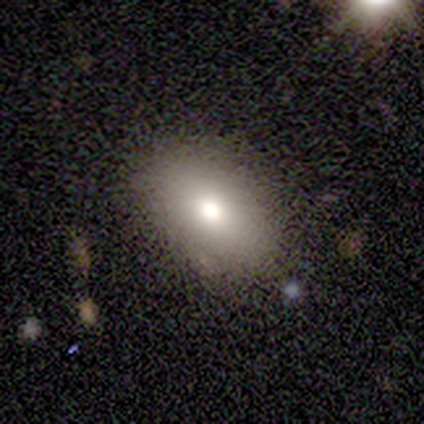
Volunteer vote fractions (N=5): Smooth or featured?
  - smooth: 100% *
  - featured or disk: 0%
  - star or artifact: 0%
How rounded?
  - in between: 100% *
  - round: 0%
  - cigar-shaped: 0%
Merging?
  - none: 100% *
  - minor disturbance: 0%
  - major disturbance: 0%
  - merger: 0%